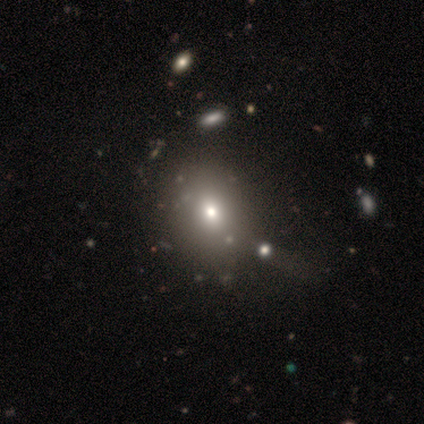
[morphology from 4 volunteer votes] This is clearly a smooth galaxy (100%). How rounded: clearly round (100%). Merging: possibly minor disturbance (50%).